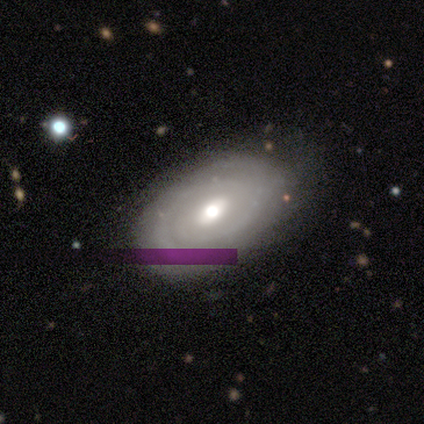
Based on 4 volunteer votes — A featured or disk galaxy (75%) with no bar (67%), no spiral arms (67%) and a moderate central bulge (100%).

Vote fractions:
- Smooth or featured? featured or disk: 75% / smooth: 25% / star or artifact: 0%
- Edge-on disk? no: 100% / yes: 0%
- Bar? no: 67% / weak: 33% / strong: 0%
- Spiral arms? no: 67% / yes: 33%
- Bulge size? moderate: 100% / dominant: 0% / large: 0% / small: 0% / none: 0%
- Merging? none: 75% / major disturbance: 25% / minor disturbance: 0% / merger: 0%